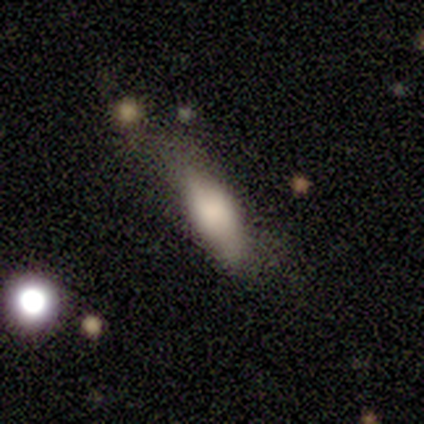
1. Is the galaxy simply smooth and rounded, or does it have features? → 75% smooth, 25% featured or disk, 0% star or artifact.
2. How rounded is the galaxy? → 100% in between, 0% round, 0% cigar-shaped.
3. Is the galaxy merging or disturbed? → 50% none, 25% minor disturbance, 25% major disturbance, 0% merger.